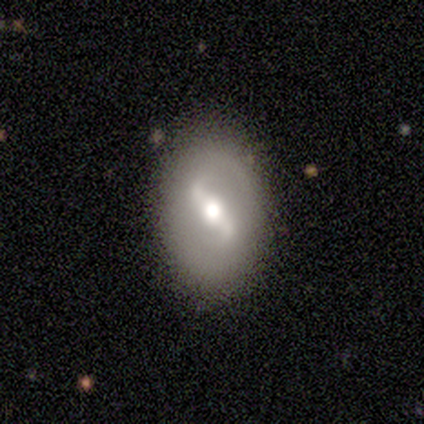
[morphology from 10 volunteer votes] featured or disk 70%, smooth 30%, star or artifact 0%. Down the decision tree: edge-on disk — no (100%); bar — strong (100%); spiral arms — yes (86%); spiral arm count — 2 (83%); spiral winding — loose (67%); bulge size — moderate (86%); merging — none (100%).